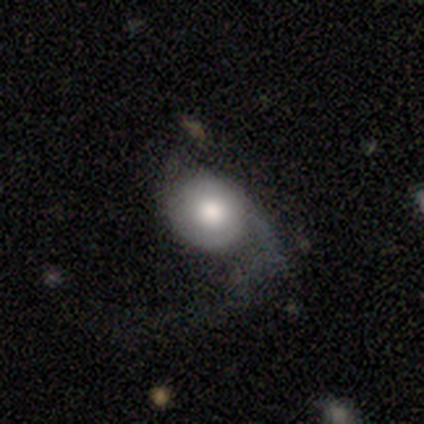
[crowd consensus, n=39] Q: Smooth or featured?
A: featured or disk (49%); runner-up: smooth (44%)
Q: Edge-on disk?
A: no (95%); runner-up: yes (5%)
Q: Bar?
A: no (89%); runner-up: weak (11%)
Q: Spiral arms?
A: yes (67%); runner-up: no (33%)
Q: Spiral winding?
A: loose (50%); runner-up: tight (33%)
Q: Spiral arm count?
A: 1 (50%); runner-up: 2 (42%)
Q: Bulge size?
A: moderate (61%); runner-up: large (33%)
Q: Merging?
A: major disturbance (69%); runner-up: none (25%)